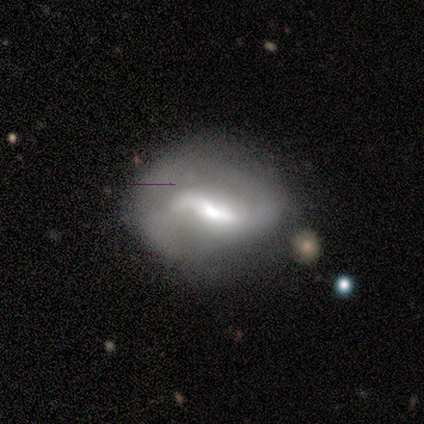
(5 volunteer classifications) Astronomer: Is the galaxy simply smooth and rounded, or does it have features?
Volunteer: featured or disk — 100%.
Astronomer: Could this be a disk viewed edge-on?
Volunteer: no — 100%.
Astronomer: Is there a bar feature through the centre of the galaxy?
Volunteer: weak — 80%.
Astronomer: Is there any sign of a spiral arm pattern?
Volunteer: yes — 60% (runner-up: no, 40%).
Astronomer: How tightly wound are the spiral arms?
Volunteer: medium — 100%.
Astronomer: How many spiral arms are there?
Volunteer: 2 — 67%.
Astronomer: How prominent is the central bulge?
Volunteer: large — 40%, tied with moderate at 40%.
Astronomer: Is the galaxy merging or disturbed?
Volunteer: none — 60%.